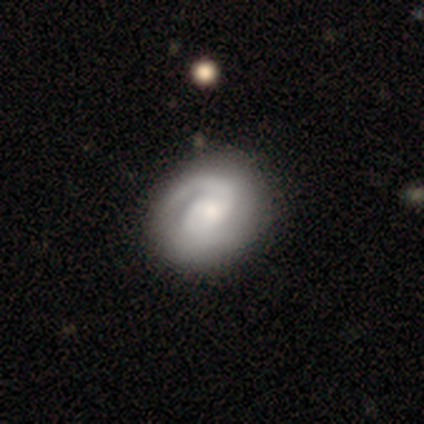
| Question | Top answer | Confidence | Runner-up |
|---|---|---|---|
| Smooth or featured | featured or disk | 79% | smooth (21%) |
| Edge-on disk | no | 93% | yes (7%) |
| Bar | no | 61% | weak (29%) |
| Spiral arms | yes | 89% | no (11%) |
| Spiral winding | tight | 56% | medium (28%) |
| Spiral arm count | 2 | 48% | 1 (40%) |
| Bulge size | moderate | 46% | small (29%) |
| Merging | none | 32% | minor disturbance (16%) |